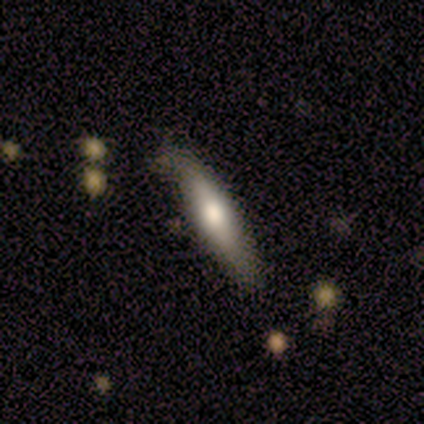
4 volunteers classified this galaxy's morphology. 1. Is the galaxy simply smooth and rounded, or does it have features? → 100% smooth, 0% featured or disk, 0% star or artifact.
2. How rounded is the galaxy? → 100% cigar-shaped, 0% round, 0% in between.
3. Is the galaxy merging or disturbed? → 100% none, 0% minor disturbance, 0% major disturbance, 0% merger.